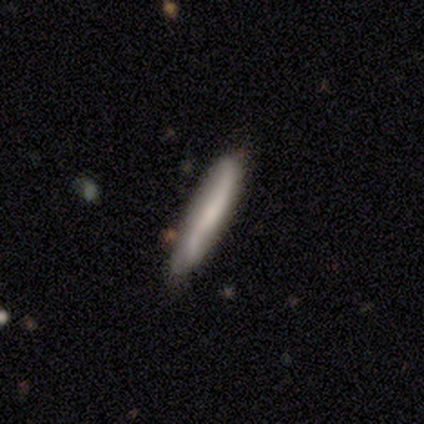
featured or disk 100%, smooth 0%, star or artifact 0%. Down the decision tree: edge-on disk — yes (100%); edge-on bulge — none (67%); merging — minor disturbance (67%).